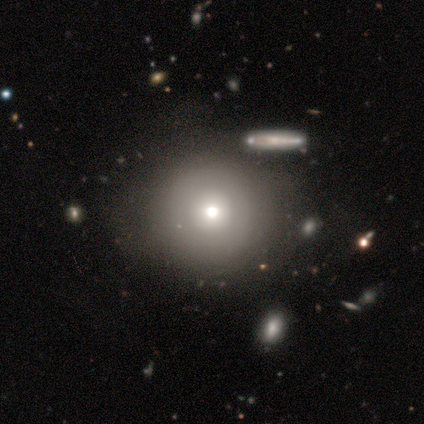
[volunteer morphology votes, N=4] Volunteers were most divided on "smooth or featured": smooth: 75%, featured or disk: 25%, star or artifact: 0%. More confident: how rounded — round (100%); merging — none (75%).